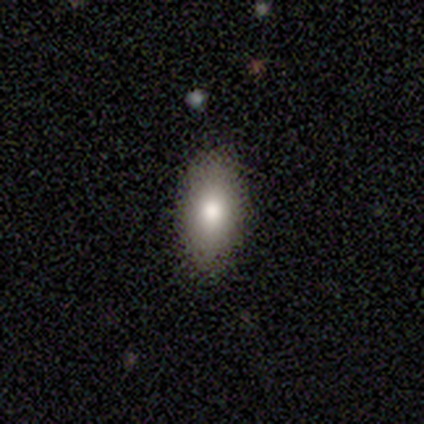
Smooth or featured: smooth — 80% (featured or disk — 20%)
How rounded: in between — 100%
Merging: none — 100%